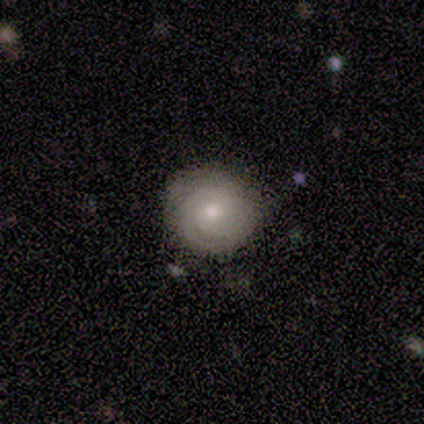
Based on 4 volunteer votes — A smooth galaxy with no disk features (50%, tied with featured or disk) that is round (100%).

Vote fractions:
- Smooth or featured? smooth: 50% (tied) / featured or disk: 50% (tied) / star or artifact: 0%
- How rounded? round: 100% / in between: 0% / cigar-shaped: 0%
- Merging? none: 50% / minor disturbance: 25% / major disturbance: 25% / merger: 0%